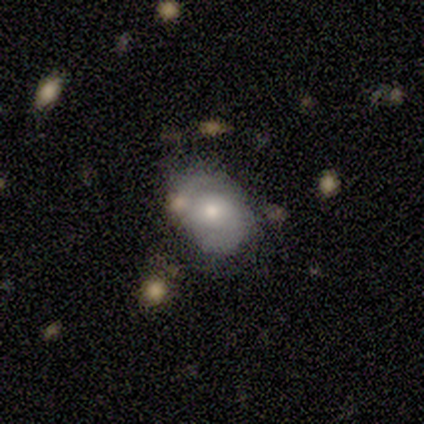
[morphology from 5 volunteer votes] Q: Smooth or featured?
A: featured or disk (80%); runner-up: smooth (20%)
Q: Edge-on disk?
A: no (100%)
Q: Bar?
A: weak (50%); tied with: no (50%)
Q: Spiral arms?
A: yes (100%)
Q: Spiral winding?
A: medium (100%)
Q: Spiral arm count?
A: 2 (75%); runner-up: can't tell (25%)
Q: Bulge size?
A: moderate (50%); tied with: small (50%)
Q: Merging?
A: none (100%)